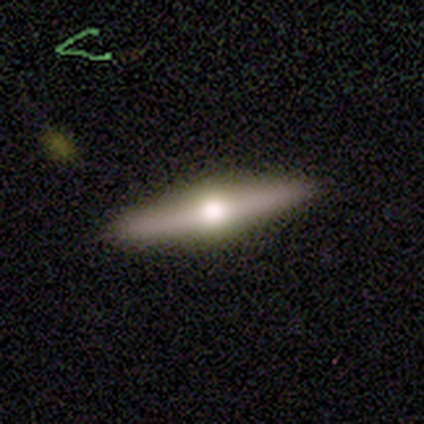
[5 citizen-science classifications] Smooth or featured: featured or disk — 60% (smooth — 40%)
Edge-on disk: yes — 67% (no — 33%)
Edge-on bulge: boxy — 50% (tied with rounded — 50%)
Merging: none — 100%